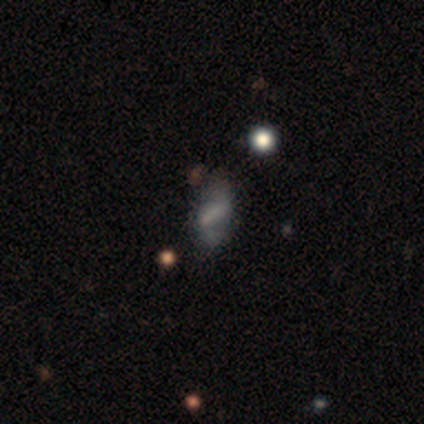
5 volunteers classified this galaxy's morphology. Volunteers were most divided on "merging": none: 60%, major disturbance: 40%, minor disturbance: 0%, merger: 0%. More confident: bulge size — none (100%); smooth or featured — featured or disk (80%); edge-on disk — no (75%); bar — no (67%); spiral arms — no (67%).